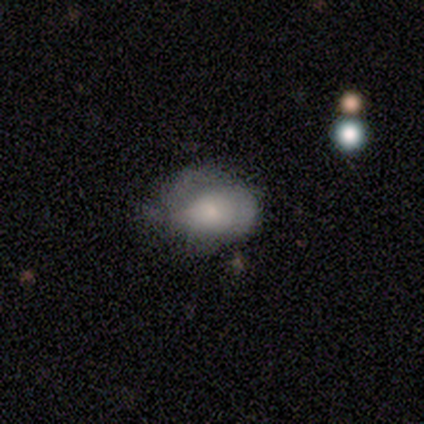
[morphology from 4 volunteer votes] Q: Smooth or featured?
A: smooth (50%); runner-up: featured or disk (25%)
Q: How rounded?
A: round (100%)
Q: Merging?
A: none (67%); runner-up: minor disturbance (33%)